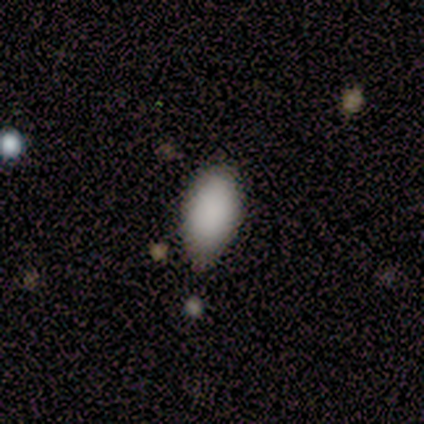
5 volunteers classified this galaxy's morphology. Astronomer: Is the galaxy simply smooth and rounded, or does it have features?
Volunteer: smooth — 100%.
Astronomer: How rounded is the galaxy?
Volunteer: in between — 100%.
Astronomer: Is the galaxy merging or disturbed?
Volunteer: none — 100%.